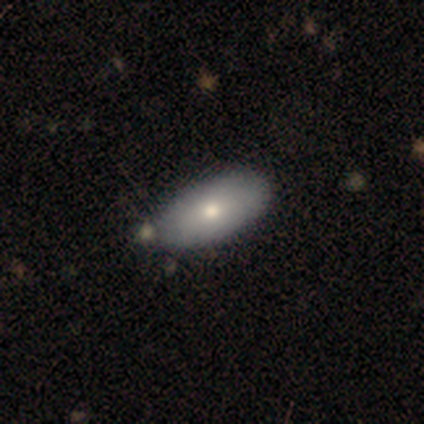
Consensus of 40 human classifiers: smooth-or-featured: smooth: 65% | featured or disk: 32% | star or artifact: 2%
  how-rounded: in between: 96% | round: 4% | cigar-shaped: 0%
  merging: none: 62% | minor disturbance: 8% | merger: 5% | major disturbance: 3%